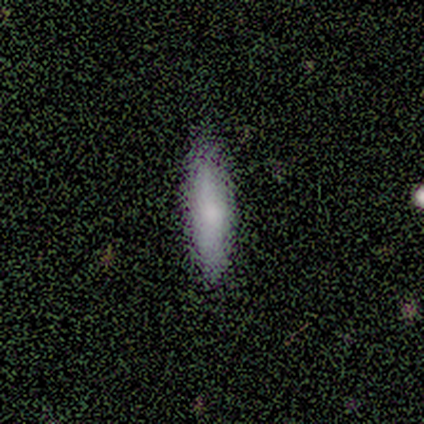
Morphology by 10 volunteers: smooth_or_featured: smooth (p=0.60) [alt: featured or disk p=0.40]
how_rounded: cigar-shaped (p=0.67) [alt: in between p=0.33]
merging: none (p=0.70) [alt: minor disturbance p=0.30]